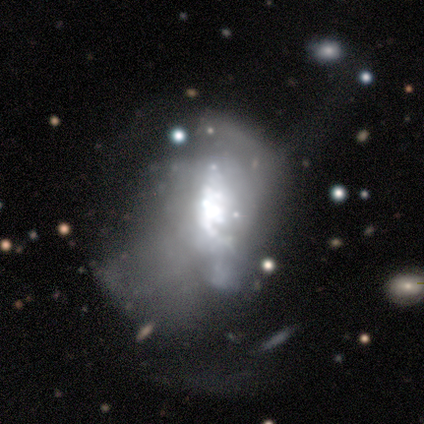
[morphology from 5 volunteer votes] Smooth or featured? 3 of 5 (60%) said featured or disk. Edge-on disk? 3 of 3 (100%) said no. Bar? 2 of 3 (67%) said no. Spiral arms? 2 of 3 (67%) said yes. Spiral winding? 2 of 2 (100%) said loose. Spiral arm count? 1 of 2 (50%, tied with 2) said 1. Bulge size? 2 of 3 (67%) said moderate. Merging? 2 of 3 (67%) said major disturbance.